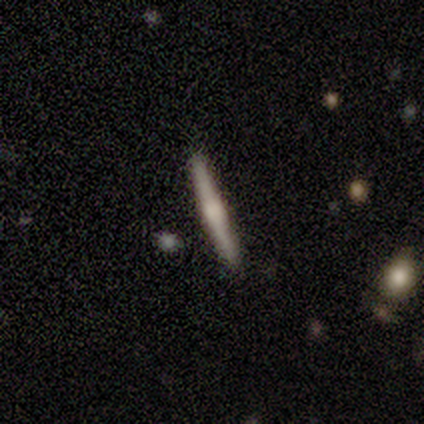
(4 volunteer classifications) smooth 100%, featured or disk 0%, star or artifact 0%. Down the decision tree: how rounded — cigar-shaped (100%); merging — none (100%).